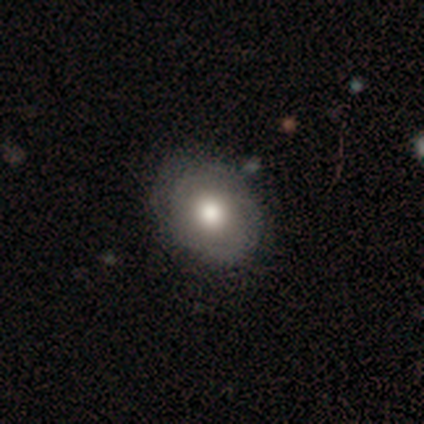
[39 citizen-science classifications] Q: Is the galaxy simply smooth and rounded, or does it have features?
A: smooth — 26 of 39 (67%).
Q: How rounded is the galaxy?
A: round — 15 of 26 (58%).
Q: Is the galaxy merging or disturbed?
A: none — 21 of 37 (57%).